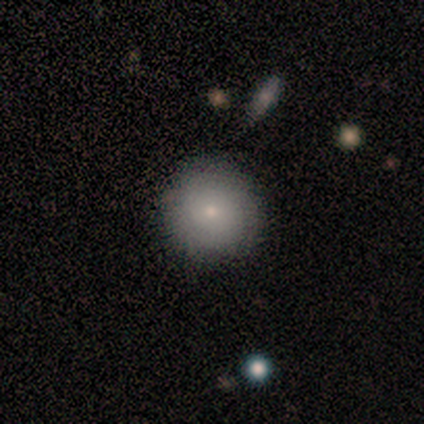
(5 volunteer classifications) Volunteers were most divided on "how rounded": round: 75%, in between: 25%, cigar-shaped: 0%. More confident: smooth or featured — smooth (80%); merging — none (75%).